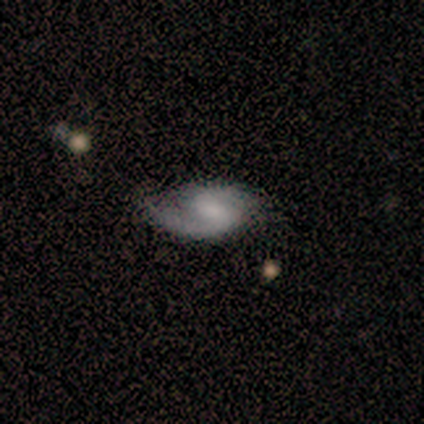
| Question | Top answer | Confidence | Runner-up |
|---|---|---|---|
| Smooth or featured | featured or disk | 90% | smooth (10%) |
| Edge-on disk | no | 78% | yes (22%) |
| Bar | weak | 57% | no (43%) |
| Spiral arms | yes | 100% | — |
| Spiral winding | loose | 71% | tight (14%) |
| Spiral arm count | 2 | 71% | 1 (29%) |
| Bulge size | none | 57% | small (29%) |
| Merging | none | 60% | minor disturbance (40%) |